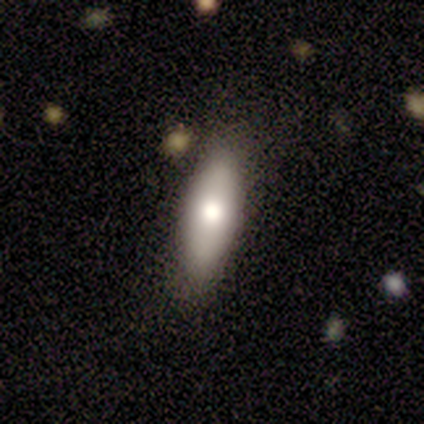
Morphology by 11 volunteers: This is likely a smooth galaxy (64%). How rounded: possibly in between (57%). Merging: clearly none (80%).